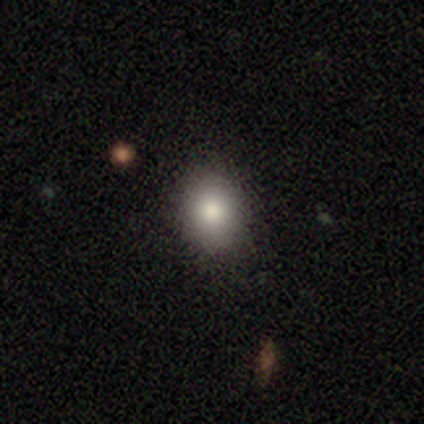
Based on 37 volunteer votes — smooth 73%, star or artifact 24%, featured or disk 3%. Down the decision tree: how rounded — in between (52%); merging — none (89%).